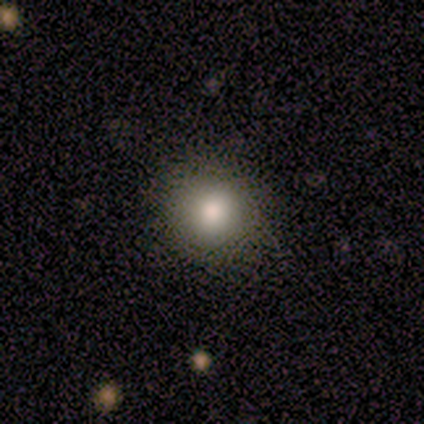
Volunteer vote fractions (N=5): A smooth galaxy with no disk features (80%) that is round (100%). Merging: none (100%).